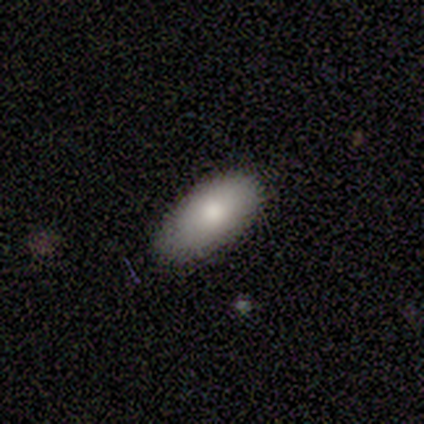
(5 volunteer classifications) Q: Smooth or featured?
A: smooth (100%)
Q: How rounded?
A: in between (100%)
Q: Merging?
A: none (100%)